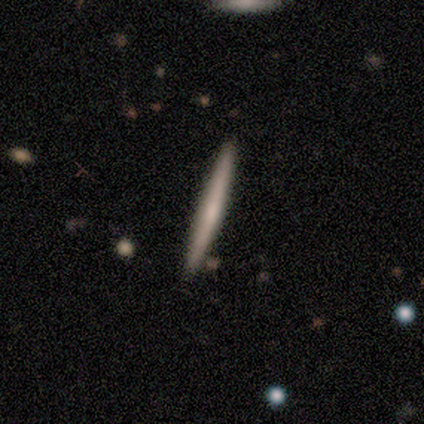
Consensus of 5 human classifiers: Volunteers were most divided on "smooth or featured": smooth: 80%, featured or disk: 20%, star or artifact: 0%. More confident: how rounded — cigar-shaped (100%); merging — none (100%).